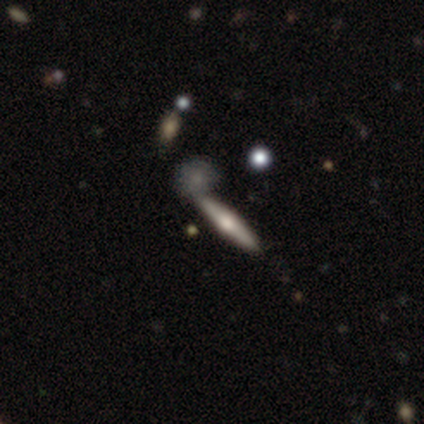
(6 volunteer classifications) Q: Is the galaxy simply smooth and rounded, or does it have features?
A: featured or disk — 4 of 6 (67%).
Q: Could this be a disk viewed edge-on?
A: yes — 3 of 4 (75%).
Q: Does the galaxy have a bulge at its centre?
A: rounded — 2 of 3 (67%).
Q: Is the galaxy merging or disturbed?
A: none — 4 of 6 (67%).